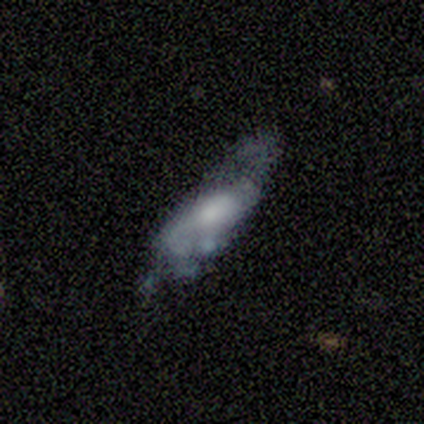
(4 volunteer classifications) Smooth or featured? 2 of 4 (50%, tied with featured or disk) said smooth. How rounded? 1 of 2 (50%, tied with cigar-shaped) said in between. Merging? 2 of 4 (50%) said minor disturbance.